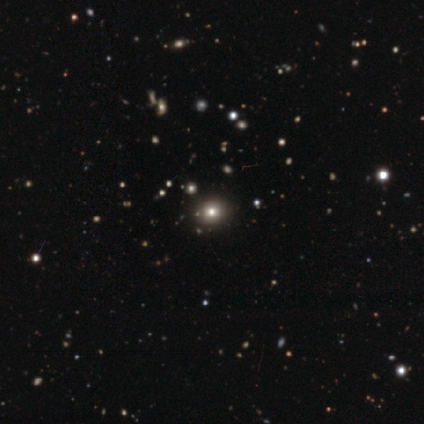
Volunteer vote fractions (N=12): Overall: smooth (50%, tied with star or artifact). How rounded: round (100%). Merging: none (67%; minor disturbance 33%).